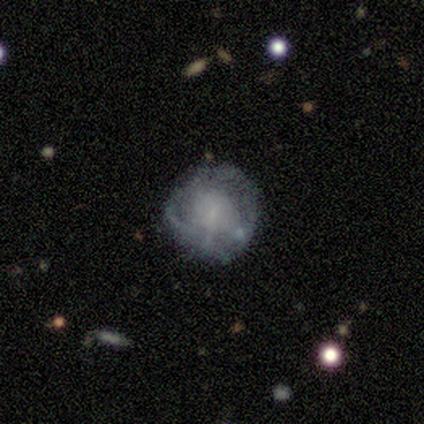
Volunteers were most divided on "bar": no: 50%, strong: 25%, weak: 25%. More confident: smooth or featured — featured or disk (100%); edge-on disk — no (100%); merging — none (100%); spiral arms — no (75%); bulge size — small (50%).